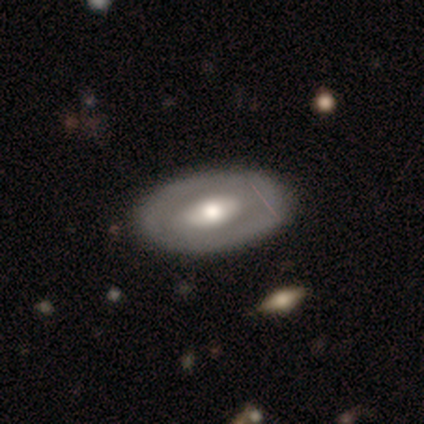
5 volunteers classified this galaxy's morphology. Smooth or featured?
  - featured or disk: 80% *
  - star or artifact: 20%
  - smooth: 0%
Edge-on disk?
  - no: 100% *
  - yes: 0%
Bar?
  - weak: 50% * (tied)
  - no: 50% * (tied)
  - strong: 0%
Spiral arms?
  - yes: 50% * (tied)
  - no: 50% * (tied)
Spiral winding?
  - medium: 100% *
  - tight: 0%
  - loose: 0%
Spiral arm count?
  - 2: 50% * (tied)
  - can't tell: 50% * (tied)
  - 1: 0%
  - 3: 0%
  - 4: 0%
  - more than 4: 0%
Bulge size?
  - moderate: 50% *
  - large: 25%
  - small: 25%
  - dominant: 0%
  - none: 0%
Merging?
  - none: 100% *
  - minor disturbance: 0%
  - major disturbance: 0%
  - merger: 0%